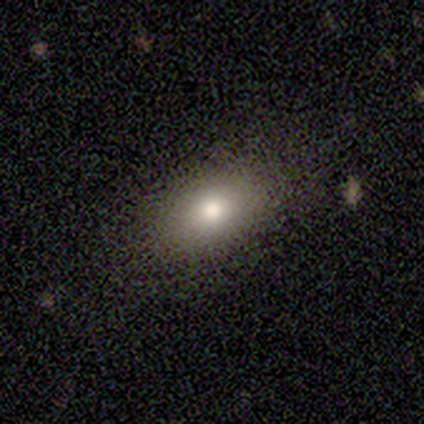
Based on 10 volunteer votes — A smooth galaxy with no disk features (60%) that is in between round and cigar-shaped (67%). Merging: none (78%).